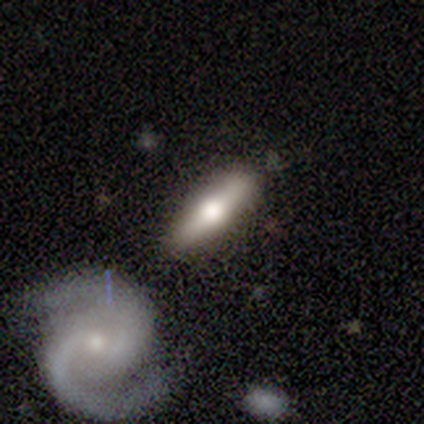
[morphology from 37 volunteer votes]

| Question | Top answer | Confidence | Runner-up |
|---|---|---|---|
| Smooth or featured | smooth | 46% | tied: featured or disk (46%) |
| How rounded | cigar-shaped | 71% | in between (29%) |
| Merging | none | 71% | minor disturbance (18%) |